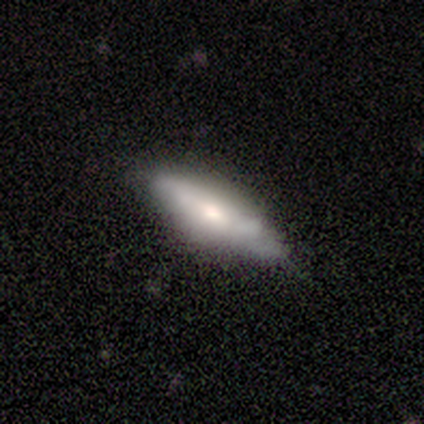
Smooth or featured? 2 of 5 (40%, tied with featured or disk) said smooth. How rounded? 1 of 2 (50%, tied with cigar-shaped) said in between. Merging? 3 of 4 (75%) said minor disturbance.